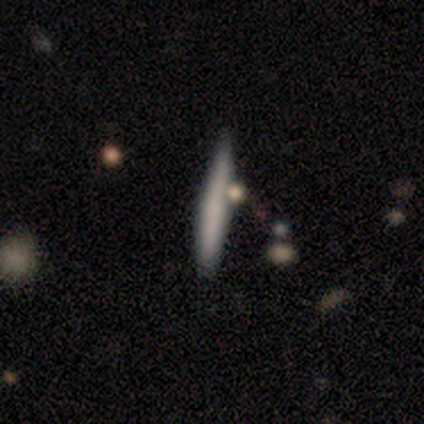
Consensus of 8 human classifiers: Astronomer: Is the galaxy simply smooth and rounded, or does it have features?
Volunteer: smooth — 62%.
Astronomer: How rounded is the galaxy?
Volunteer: cigar-shaped — 100%.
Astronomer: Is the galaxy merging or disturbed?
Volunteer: minor disturbance — 57%.